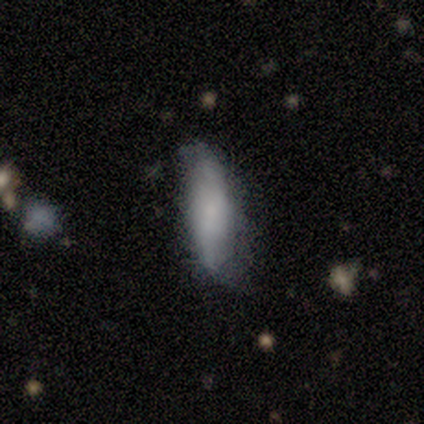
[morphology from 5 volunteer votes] Smooth or featured? smooth (60%)
How rounded? in between (67%)
Merging? none (60%)